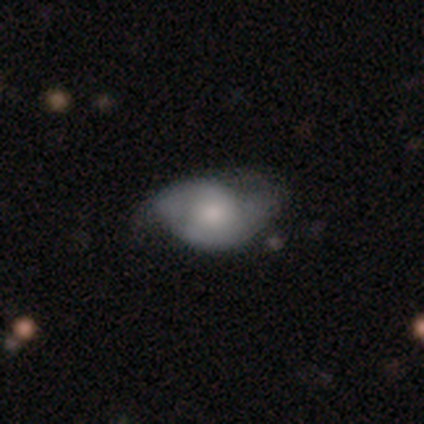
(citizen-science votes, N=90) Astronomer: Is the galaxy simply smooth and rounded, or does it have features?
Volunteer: featured or disk — 56% (runner-up: smooth, 38%).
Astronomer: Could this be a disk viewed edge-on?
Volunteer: no — 92%.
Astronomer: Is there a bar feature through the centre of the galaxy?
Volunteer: no — 72%.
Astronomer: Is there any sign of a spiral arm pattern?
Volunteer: yes — 78%.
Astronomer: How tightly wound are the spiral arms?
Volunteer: medium — 47% (runner-up: tight, 31%).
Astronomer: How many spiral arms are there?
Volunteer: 2 — 75%.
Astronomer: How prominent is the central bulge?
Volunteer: small — 37% (runner-up: moderate, 35%).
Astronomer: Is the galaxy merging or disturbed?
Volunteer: none — 48% (runner-up: minor disturbance, 39%).